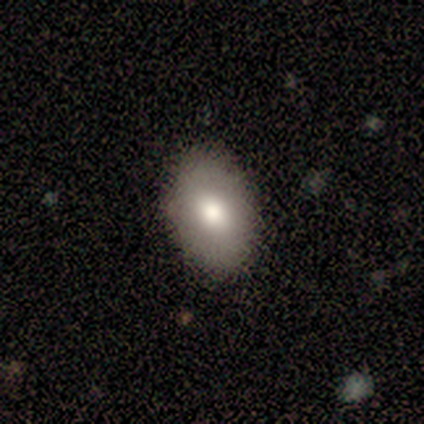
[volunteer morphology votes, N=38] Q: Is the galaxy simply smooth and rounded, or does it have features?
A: smooth — 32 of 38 (84%).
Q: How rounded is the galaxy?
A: in between — 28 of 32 (88%).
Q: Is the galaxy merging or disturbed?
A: none — 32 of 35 (91%).